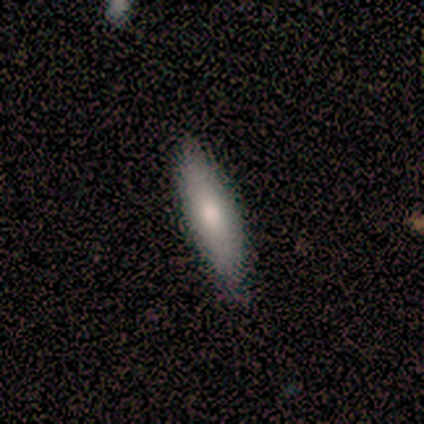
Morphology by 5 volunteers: type=smooth (100%); roundness=cigar-shaped (80%); merging=none (80%).